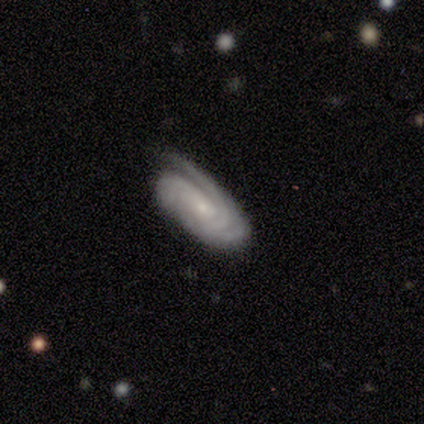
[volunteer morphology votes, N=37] A featured or disk galaxy (89%) with no bar (63%), 3 (30%) tight (77%) spiral arms (100%) and a small central bulge (80%).

Vote fractions:
- Smooth or featured? featured or disk: 89% / star or artifact: 11% / smooth: 0%
- Edge-on disk? no: 91% / yes: 9%
- Bar? no: 63% / weak: 37% / strong: 0%
- Spiral arms? yes: 100% / no: 0%
- Spiral winding? tight: 77% / medium: 17% / loose: 7%
- Spiral arm count? 3: 30% / can't tell: 23% / 1: 17% / 2: 17% / 4: 10% / more than 4: 3%
- Bulge size? small: 80% / moderate: 13% / none: 7% / dominant: 0% / large: 0%
- Merging? none: 73% / minor disturbance: 21% / major disturbance: 6% / merger: 0%